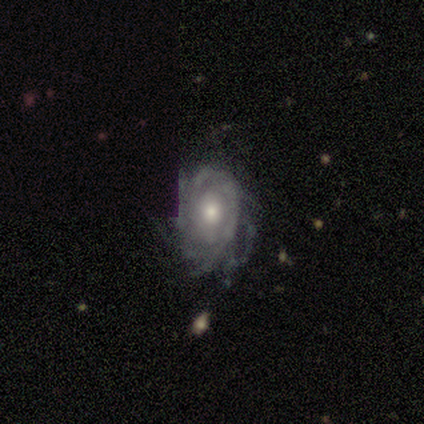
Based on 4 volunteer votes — smooth_or_featured: featured or disk (p=1.00)
disk_edge_on: no (p=1.00)
bar: no (p=1.00)
has_spiral_arms: yes (p=1.00)
spiral_winding: tight (p=1.00)
spiral_arm_count: can't tell (p=0.75) [alt: more than 4 p=0.25]
bulge_size: moderate (p=0.75) [alt: small p=0.25]
merging: none (p=1.00)